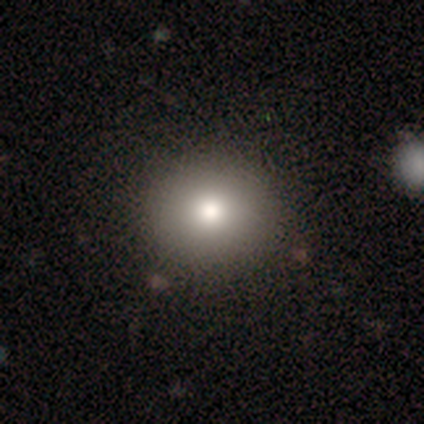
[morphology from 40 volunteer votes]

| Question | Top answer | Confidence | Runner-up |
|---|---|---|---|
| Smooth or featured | smooth | 78% | star or artifact (15%) |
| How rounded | round | 90% | in between (10%) |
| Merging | none | 56% | minor disturbance (3%) |